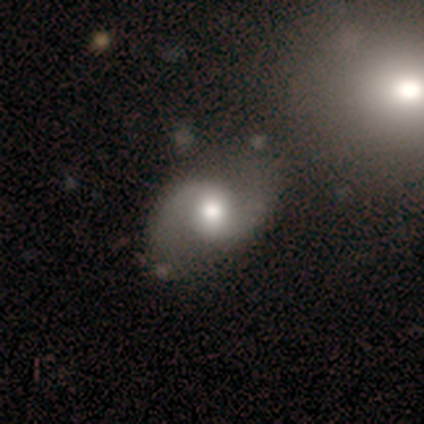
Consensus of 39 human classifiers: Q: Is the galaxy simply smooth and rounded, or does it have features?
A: featured or disk — 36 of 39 (92%).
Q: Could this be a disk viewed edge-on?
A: no — 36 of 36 (100%).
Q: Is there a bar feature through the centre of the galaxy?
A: no — 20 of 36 (56%).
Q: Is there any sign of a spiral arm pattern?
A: yes — 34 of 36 (94%).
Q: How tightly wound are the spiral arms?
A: loose — 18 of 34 (53%).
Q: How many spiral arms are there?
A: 2 — 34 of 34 (100%).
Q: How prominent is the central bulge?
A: moderate — 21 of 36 (58%).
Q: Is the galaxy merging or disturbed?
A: none — 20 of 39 (51%).